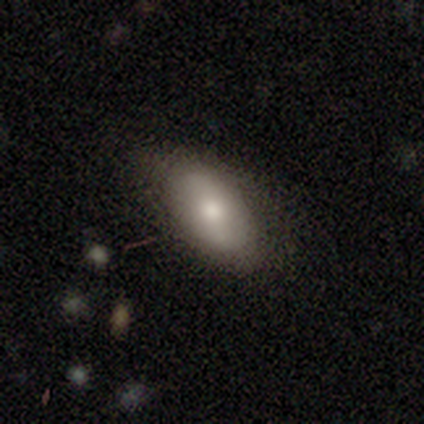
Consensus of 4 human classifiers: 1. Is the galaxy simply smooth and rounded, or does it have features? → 50% smooth, 25% featured or disk, 25% star or artifact.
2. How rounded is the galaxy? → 100% in between, 0% round, 0% cigar-shaped.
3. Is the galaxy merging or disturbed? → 67% none, 33% minor disturbance, 0% major disturbance, 0% merger.